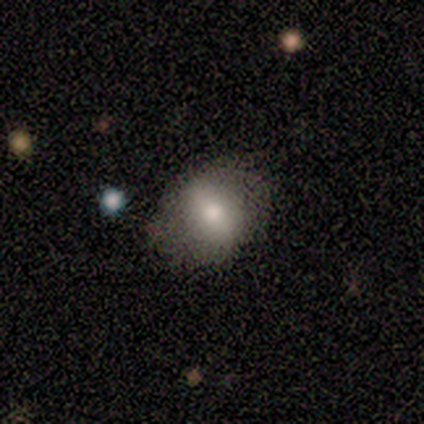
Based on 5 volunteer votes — smooth 80%, featured or disk 20%, star or artifact 0%. Down the decision tree: how rounded — round (50%, tied with in between); merging — none (80%).